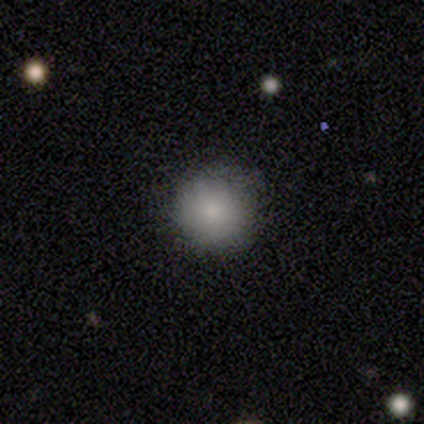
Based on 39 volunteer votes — Morphology: type=smooth (85%); roundness=round (94%); merging=none (53%).